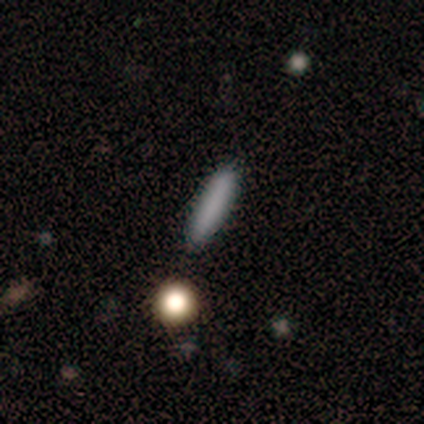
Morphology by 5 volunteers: type=smooth (100%); roundness=cigar-shaped (100%); merging=none (100%).